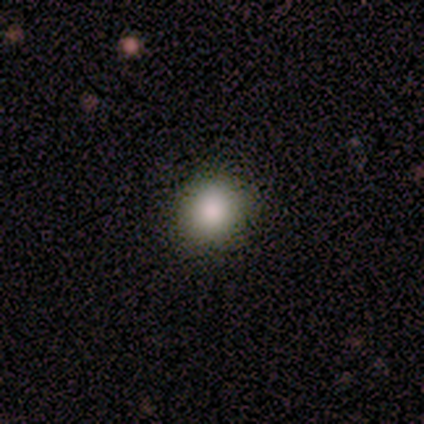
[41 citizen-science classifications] This is likely a smooth galaxy (78%). How rounded: clearly round (91%). Merging: clearly none (89%).